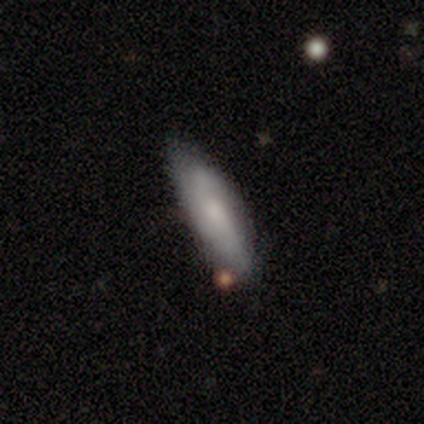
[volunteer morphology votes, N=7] Volunteers were most divided on "smooth or featured": smooth: 71%, featured or disk: 29%, star or artifact: 0%. More confident: merging — none (86%); how rounded — cigar-shaped (80%).